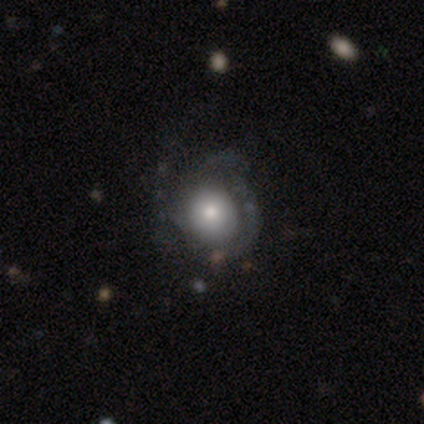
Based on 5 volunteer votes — A featured or disk galaxy (60%) with no bar (100%), tight (50%, tied with medium) spiral arms (67%) and a moderate central bulge (67%). Merging: none (100%).